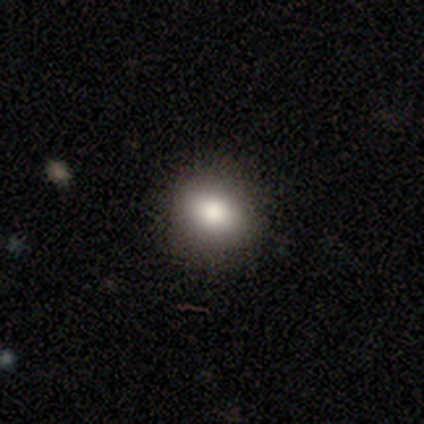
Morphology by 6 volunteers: Overall: smooth (83%). How rounded: round (60%; in between 40%). Merging: none (100%).